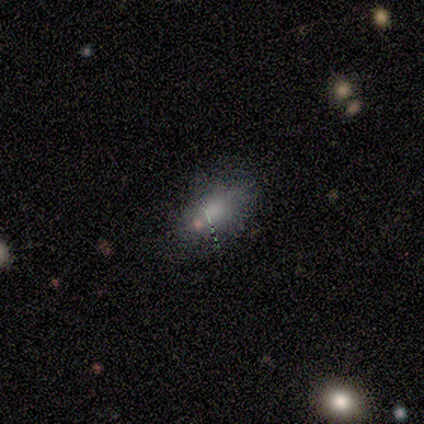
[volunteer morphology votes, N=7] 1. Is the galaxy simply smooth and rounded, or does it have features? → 86% smooth, 14% featured or disk, 0% star or artifact.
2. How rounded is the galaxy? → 83% in between, 17% cigar-shaped, 0% round.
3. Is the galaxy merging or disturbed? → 86% none, 14% minor disturbance, 0% major disturbance, 0% merger.